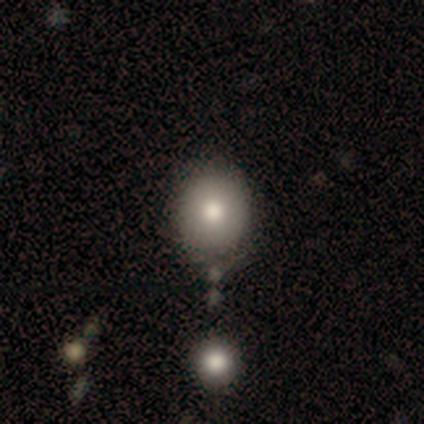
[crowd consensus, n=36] Volunteers were most divided on "how rounded": round: 79%, in between: 21%, cigar-shaped: 0%. More confident: merging — none (82%); smooth or featured — smooth (81%).